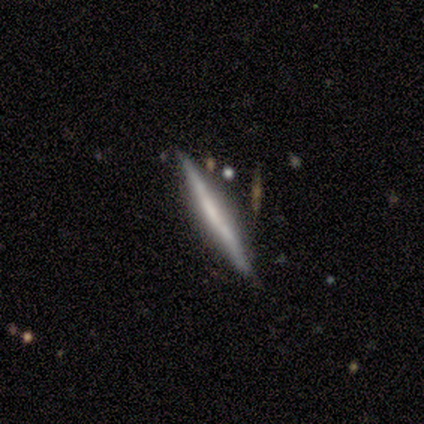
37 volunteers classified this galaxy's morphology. Overall: featured or disk (76%). Edge-on disk: yes (93%). Edge-on bulge: none (85%). Merging: none (74%).